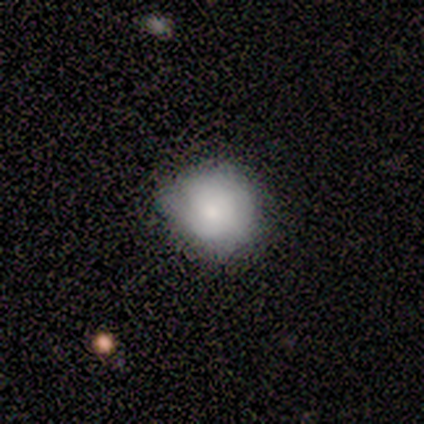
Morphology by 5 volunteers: This appears to be a smooth galaxy with no disk features (60%) that is round (100%). Merging: none (67%).